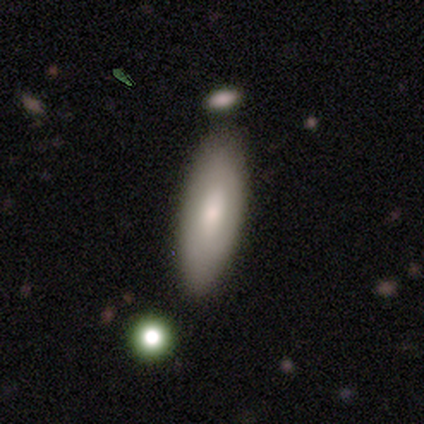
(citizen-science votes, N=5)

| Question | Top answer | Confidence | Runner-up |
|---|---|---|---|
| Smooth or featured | smooth | 100% | — |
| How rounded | in between | 100% | — |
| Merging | none | 100% | — |